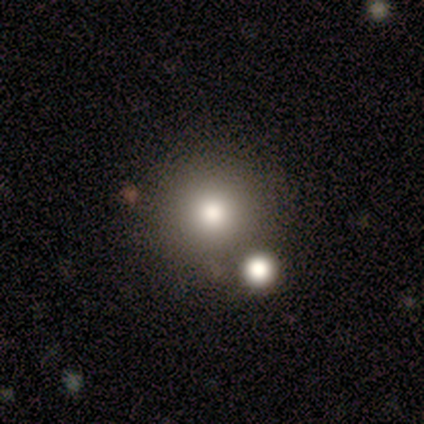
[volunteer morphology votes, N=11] smooth_or_featured: smooth (p=0.64) [alt: featured or disk p=0.18]
how_rounded: round (p=1.00)
merging: none (p=0.67) [alt: merger p=0.22]